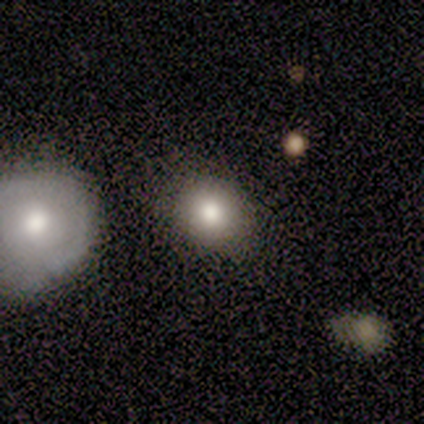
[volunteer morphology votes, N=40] smooth 78%, featured or disk 15%, star or artifact 8%. Down the decision tree: how rounded — round (71%); merging — none (84%).